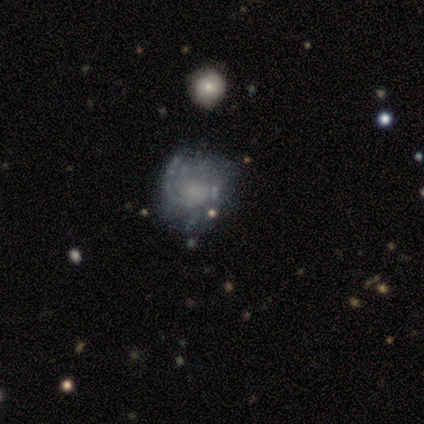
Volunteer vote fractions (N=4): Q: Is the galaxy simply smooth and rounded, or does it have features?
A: featured or disk — 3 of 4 (75%).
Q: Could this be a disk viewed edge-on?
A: no — 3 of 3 (100%).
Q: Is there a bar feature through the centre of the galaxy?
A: no — 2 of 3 (67%).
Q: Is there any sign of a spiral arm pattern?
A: yes — 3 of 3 (100%).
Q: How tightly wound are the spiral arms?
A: tight — 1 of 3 (33%, tied with medium and loose).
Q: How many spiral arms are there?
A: can't tell — 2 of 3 (67%).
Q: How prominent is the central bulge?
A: small — 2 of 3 (67%).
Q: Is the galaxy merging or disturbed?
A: none — 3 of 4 (75%).